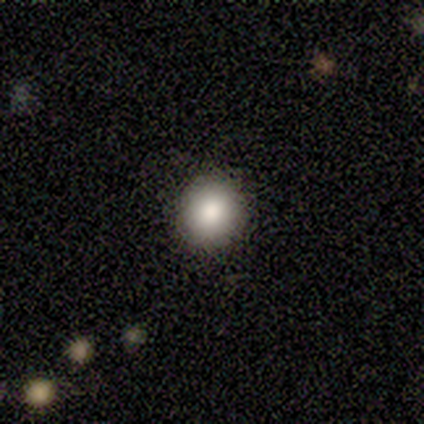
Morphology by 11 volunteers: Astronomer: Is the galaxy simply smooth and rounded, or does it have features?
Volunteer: smooth — 73%.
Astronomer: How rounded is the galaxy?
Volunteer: round — 88%.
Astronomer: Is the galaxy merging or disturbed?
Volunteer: none — 100%.